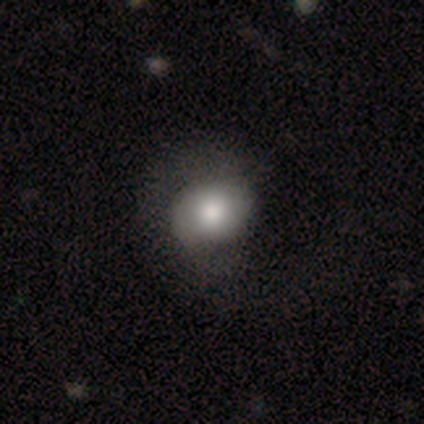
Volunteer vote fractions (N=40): Overall: smooth (72%). How rounded: round (52%; in between 48%). Merging: none (41%; minor disturbance 15%).